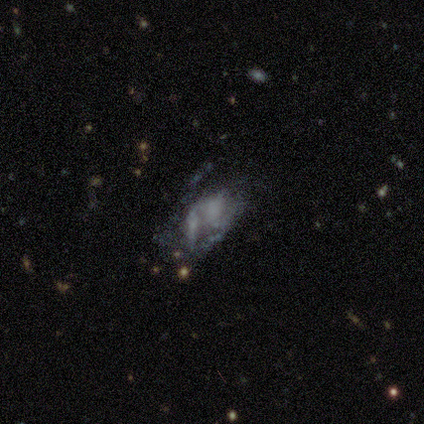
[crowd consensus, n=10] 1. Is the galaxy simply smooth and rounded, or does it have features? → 90% featured or disk, 10% smooth, 0% star or artifact.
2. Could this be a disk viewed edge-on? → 100% no, 0% yes.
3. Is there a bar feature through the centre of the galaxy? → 89% no, 11% strong, 0% weak.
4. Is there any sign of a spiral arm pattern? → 100% no, 0% yes.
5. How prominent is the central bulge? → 67% none, 22% small, 11% dominant, 0% large, 0% moderate.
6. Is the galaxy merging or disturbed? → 40% none, 20% minor disturbance, 20% major disturbance, 20% merger.